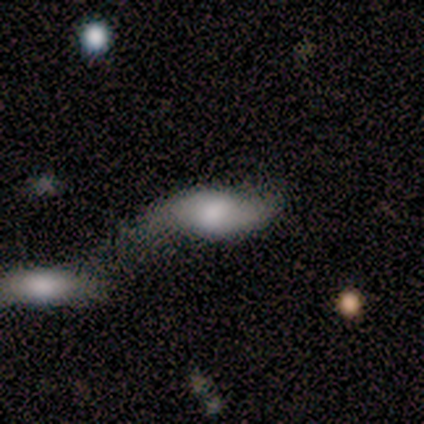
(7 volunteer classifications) Volunteers were most divided on "smooth or featured": smooth: 57%, featured or disk: 43%, star or artifact: 0%. Remaining: how rounded — in between (75%); merging — none (43%).